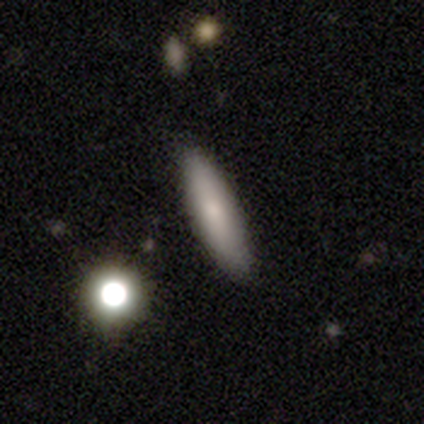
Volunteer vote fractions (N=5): Smooth or featured? 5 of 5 (100%) said smooth. How rounded? 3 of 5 (60%) said cigar-shaped. Merging? 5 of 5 (100%) said none.